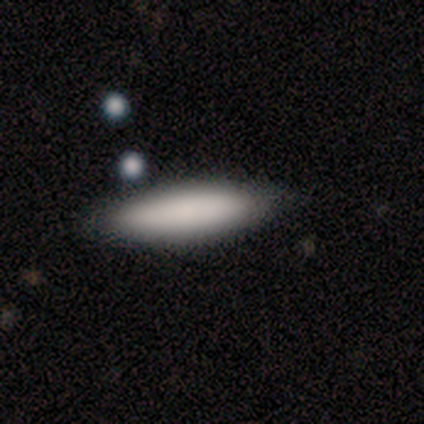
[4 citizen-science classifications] smooth 100%, featured or disk 0%, star or artifact 0%. Down the decision tree: how rounded — cigar-shaped (100%); merging — none (50%).